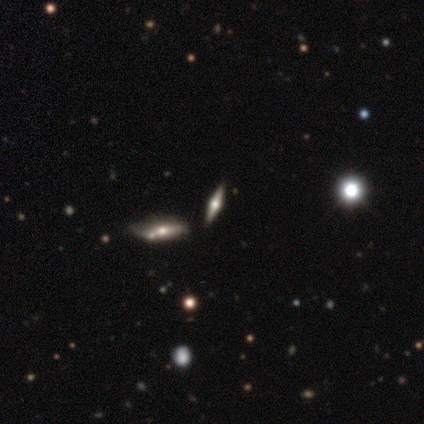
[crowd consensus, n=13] A featured or disk galaxy (69%) viewed edge-on (89%) with a rounded central bulge (100%).

Vote fractions:
- Smooth or featured? featured or disk: 69% / smooth: 23% / star or artifact: 8%
- Edge-on disk? yes: 89% / no: 11%
- Edge-on bulge? rounded: 100% / boxy: 0% / none: 0%
- Merging? none: 67% / major disturbance: 17% / minor disturbance: 8% / merger: 8%